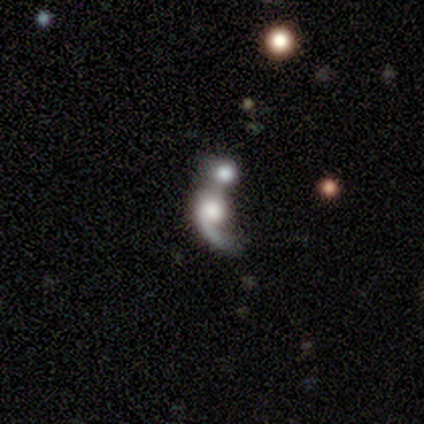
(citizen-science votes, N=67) smooth-or-featured: featured or disk: 85% | smooth: 9% | star or artifact: 6%
  disk-edge-on: no: 96% | yes: 4%
    bar: no: 91% | weak: 5% | strong: 4%
    has-spiral-arms: yes: 87% | no: 13%
      spiral-winding: loose: 62% | medium: 29% | tight: 8%
      spiral-arm-count: 1: 98% | 2: 2% | 3: 0% | 4: 0% | more than 4: 0% | can't tell: 0%
    bulge-size: large: 49% | moderate: 16% | dominant: 15% | small: 13% | none: 7%
  merging: merger: 73% | none: 16% | minor disturbance: 6% | major disturbance: 5%